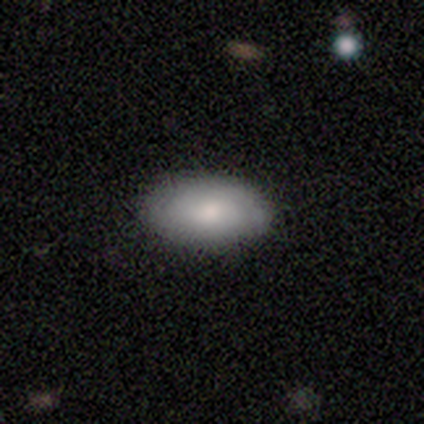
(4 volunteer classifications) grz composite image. It shows a smooth galaxy with no disk features (100%) that is in between round and cigar-shaped (75%). Merging: none (75%).